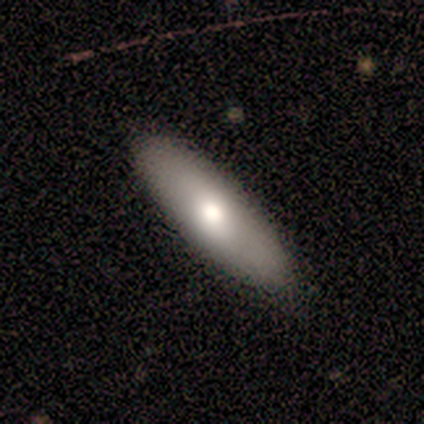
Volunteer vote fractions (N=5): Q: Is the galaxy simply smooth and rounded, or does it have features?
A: smooth — 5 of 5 (100%).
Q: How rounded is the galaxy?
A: in between — 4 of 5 (80%).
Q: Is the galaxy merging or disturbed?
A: none — 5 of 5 (100%).